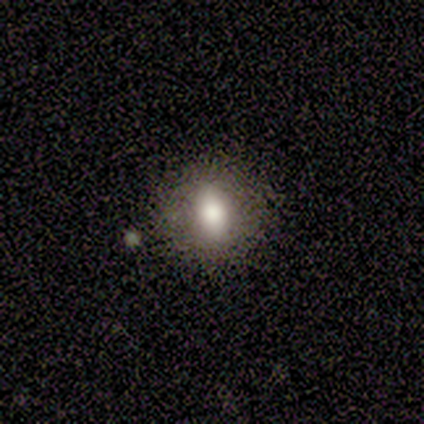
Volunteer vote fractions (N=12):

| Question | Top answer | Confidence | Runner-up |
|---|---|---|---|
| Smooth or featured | smooth | 75% | featured or disk (17%) |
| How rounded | round | 56% | in between (44%) |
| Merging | none | 91% | minor disturbance (9%) |